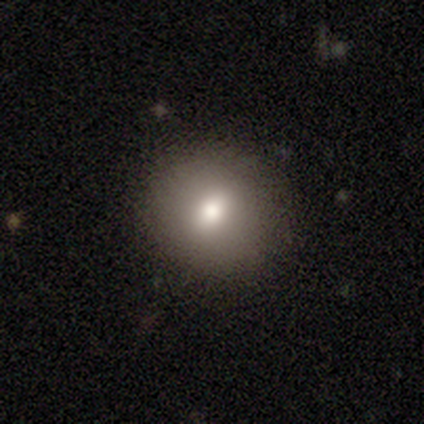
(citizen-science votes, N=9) Smooth or featured: smooth — 100%
How rounded: round — 89% (in between — 11%)
Merging: none — 100%